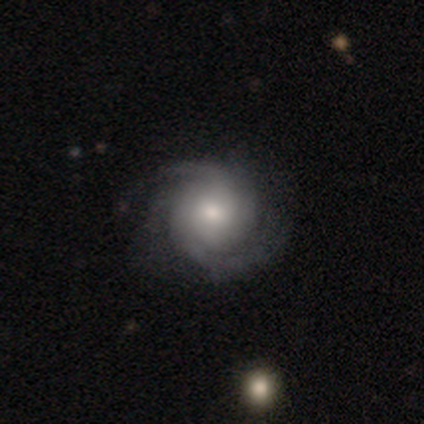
Smooth or featured? 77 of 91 (85%) said featured or disk. Edge-on disk? 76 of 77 (99%) said no. Bar? 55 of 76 (72%) said no. Spiral arms? 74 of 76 (97%) said yes. Spiral winding? 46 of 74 (62%) said tight. Spiral arm count? 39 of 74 (53%) said 2. Bulge size? 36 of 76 (47%) said moderate. Merging? 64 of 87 (74%) said none.